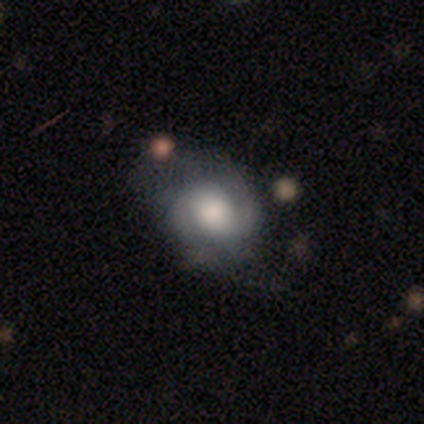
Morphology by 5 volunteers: Smooth or featured? featured or disk (60%)
Edge-on disk? no (100%)
Bar? no (67%)
Spiral arms? yes (100%)
Spiral winding? tight (33%, tied with medium and loose)
Spiral arm count? 2 (67%)
Bulge size? dominant (67%)
Merging? minor disturbance (60%)